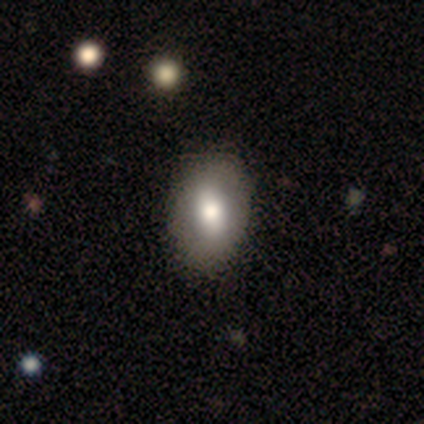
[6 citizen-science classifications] smooth_or_featured: smooth (p=0.67) [alt: star or artifact p=0.33]
how_rounded: in between (p=1.00)
merging: minor disturbance (p=0.75) [alt: none p=0.25]